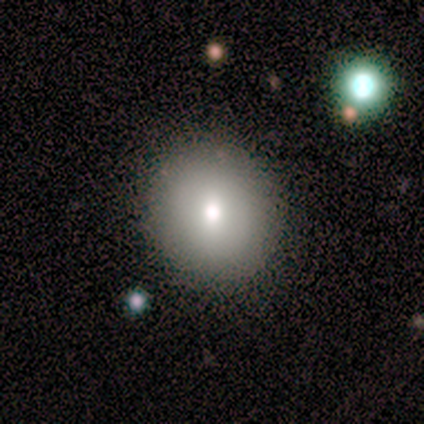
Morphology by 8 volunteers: This is clearly a smooth galaxy (88%). How rounded: clearly round (86%). Merging: clearly none (100%).